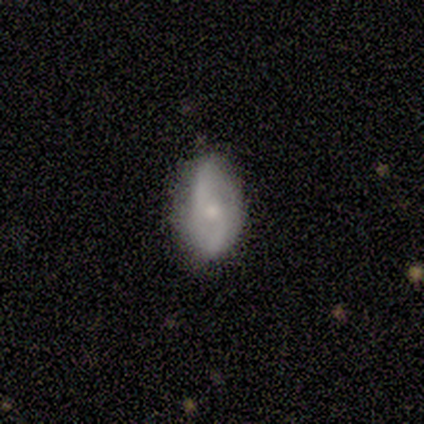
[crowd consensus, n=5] Q: Smooth or featured?
A: smooth (40%); tied with: featured or disk (40%)
Q: How rounded?
A: in between (100%)
Q: Merging?
A: none (75%); runner-up: major disturbance (25%)